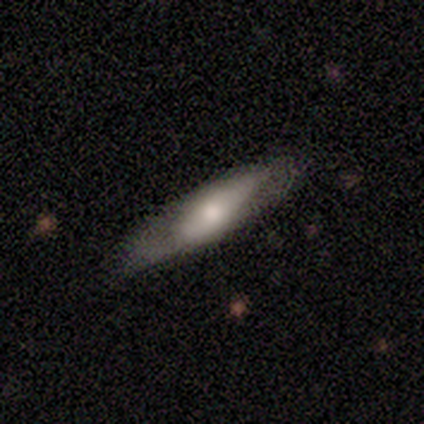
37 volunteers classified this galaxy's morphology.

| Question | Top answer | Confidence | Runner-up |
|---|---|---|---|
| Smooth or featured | smooth | 62% | featured or disk (35%) |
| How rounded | cigar-shaped | 65% | in between (35%) |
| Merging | none | 64% | minor disturbance (19%) |